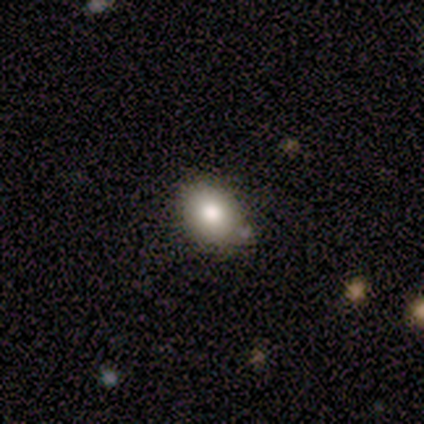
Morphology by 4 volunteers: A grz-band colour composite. It shows a smooth galaxy with no disk features (100%) that is in between round and cigar-shaped (75%). Merging: none (50%, tied with minor disturbance).